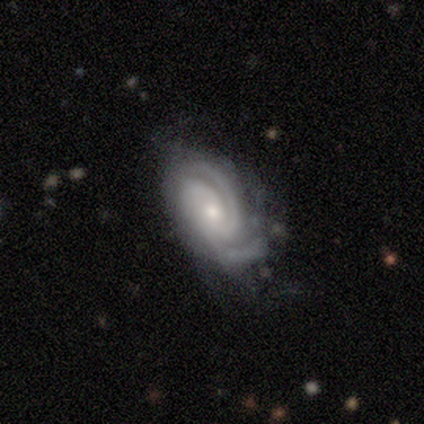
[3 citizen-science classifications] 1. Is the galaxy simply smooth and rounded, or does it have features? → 100% featured or disk, 0% smooth, 0% star or artifact.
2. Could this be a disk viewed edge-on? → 100% no, 0% yes.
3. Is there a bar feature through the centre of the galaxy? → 67% weak, 33% no, 0% strong.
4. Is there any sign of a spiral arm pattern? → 100% yes, 0% no.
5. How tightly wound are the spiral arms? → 67% medium, 33% tight, 0% loose.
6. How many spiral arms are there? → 67% 3, 33% can't tell, 0% 1, 0% 2, 0% 4, 0% more than 4.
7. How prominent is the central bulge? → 100% moderate, 0% dominant, 0% large, 0% small, 0% none.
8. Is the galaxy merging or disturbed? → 67% none, 33% minor disturbance, 0% major disturbance, 0% merger.